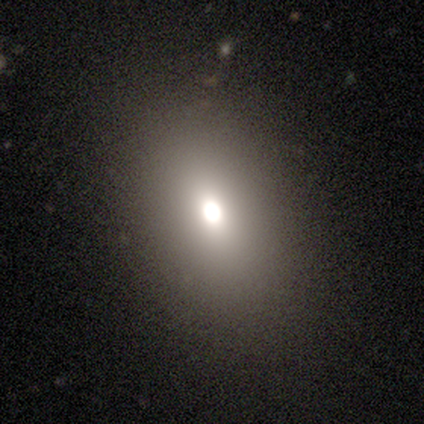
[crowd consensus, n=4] Smooth or featured: smooth — 50% (featured or disk — 25%)
How rounded: round — 50% (tied with in between — 50%)
Merging: none — 100%